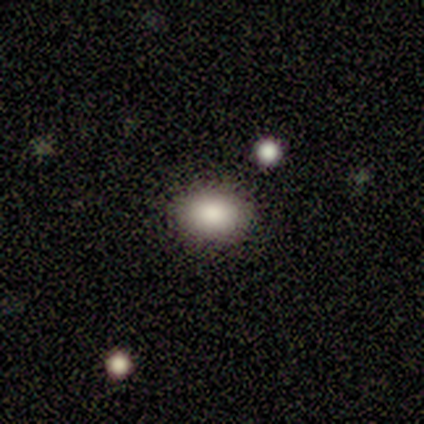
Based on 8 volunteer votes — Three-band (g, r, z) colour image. It shows a smooth galaxy with no disk features (75%) that is in between round and cigar-shaped (83%). Merging: none (100%).